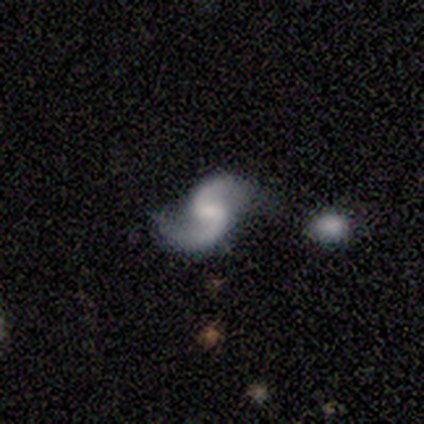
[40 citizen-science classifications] A featured or disk galaxy (95%) with a weak bar (53%), 2 (92%) loose (62%) spiral arms (97%) and a small central bulge (37%).

Vote fractions:
- Smooth or featured? featured or disk: 95% / star or artifact: 5% / smooth: 0%
- Edge-on disk? no: 100% / yes: 0%
- Bar? weak: 53% / no: 37% / strong: 11%
- Spiral arms? yes: 97% / no: 3%
- Spiral winding? loose: 62% / medium: 32% / tight: 5%
- Spiral arm count? 2: 92% / 1: 5% / can't tell: 3% / 3: 0% / 4: 0% / more than 4: 0%
- Bulge size? small: 37% / none: 29% / moderate: 18% / large: 13% / dominant: 3%
- Merging? none: 63% / minor disturbance: 21% / major disturbance: 8% / merger: 8%